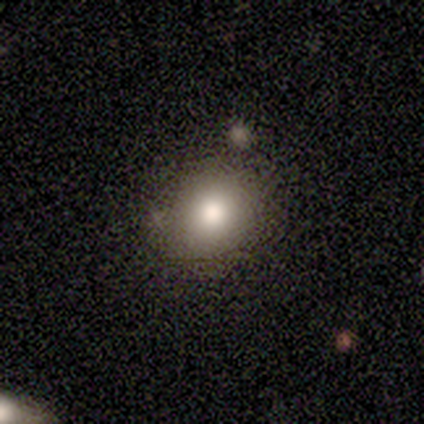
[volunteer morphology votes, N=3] This appears to be a smooth galaxy with no disk features (67%) that is round (100%). Merging: none (100%).